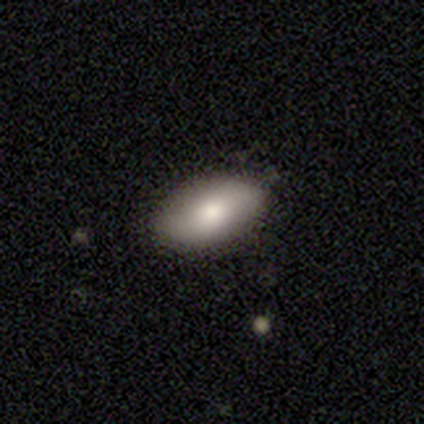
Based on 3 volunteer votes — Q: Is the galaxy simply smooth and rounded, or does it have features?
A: smooth — 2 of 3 (67%).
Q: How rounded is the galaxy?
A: in between — 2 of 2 (100%).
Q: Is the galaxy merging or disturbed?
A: minor disturbance — 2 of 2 (100%).